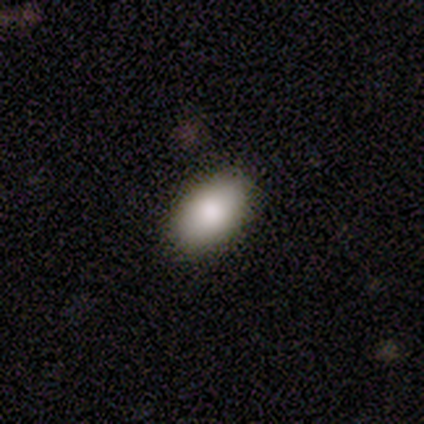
This is clearly a smooth galaxy (85%). How rounded: clearly in between (91%). Merging: clearly none (86%).